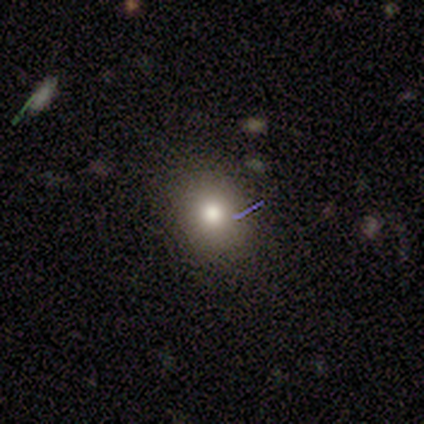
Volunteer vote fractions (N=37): A smooth galaxy with no disk features (70%) that is round (62%). Merging: none (72%).